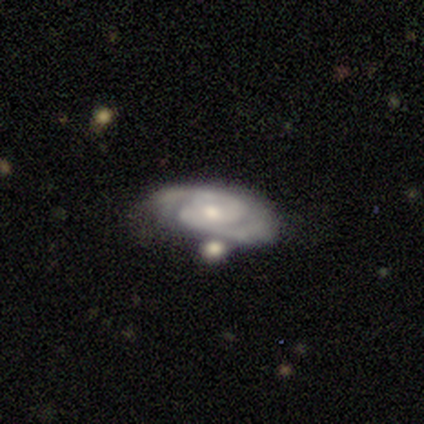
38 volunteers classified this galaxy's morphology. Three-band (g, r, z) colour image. It shows a featured or disk galaxy (84%) with no bar (48%), 2 (73%) tight (62%) spiral arms (90%) and a small central bulge (52%). Merging: none (62%).